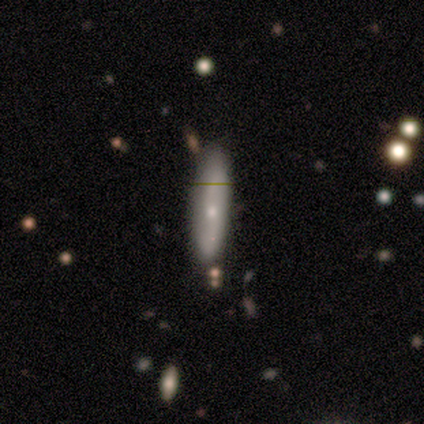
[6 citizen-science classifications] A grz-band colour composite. It shows a smooth galaxy with no disk features (67%) that is cigar-shaped (100%). Merging: none (67%).